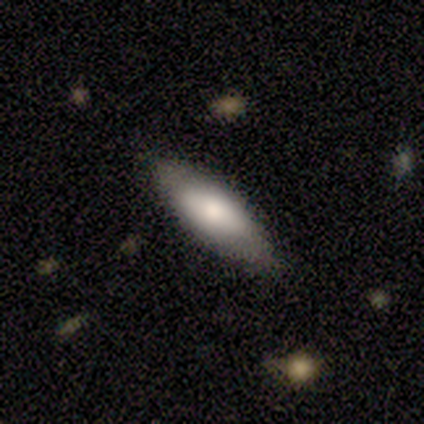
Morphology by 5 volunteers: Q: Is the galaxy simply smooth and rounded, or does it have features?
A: smooth — 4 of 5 (80%).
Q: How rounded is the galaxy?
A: in between — 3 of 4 (75%).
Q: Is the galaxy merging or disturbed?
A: none — 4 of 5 (80%).